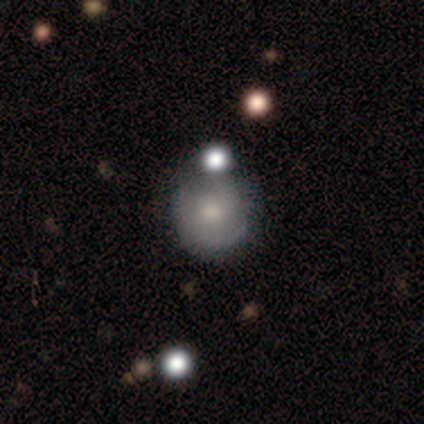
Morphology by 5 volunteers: Volunteers were most divided on "spiral arm count" (3-way tie): 2: 33%, 3: 33%, can't tell: 33%, 1: 0%, 4: 0%, more than 4: 0%. More confident: edge-on disk — no (100%); smooth or featured — featured or disk (80%); spiral arms — yes (75%); bulge size — moderate (75%); spiral winding — medium (67%); merging — none (60%); bar — no (50%).